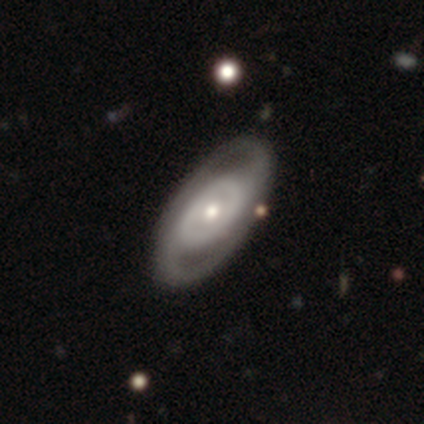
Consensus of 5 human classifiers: smooth-or-featured: smooth: 40% (tied) | featured or disk: 40% (tied) | star or artifact: 20%
  how-rounded: round: 50% (tied) | in between: 50% (tied) | cigar-shaped: 0%
  merging: none: 100% | minor disturbance: 0% | major disturbance: 0% | merger: 0%